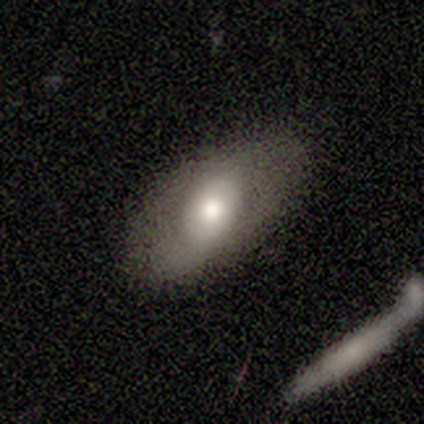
Volunteers were most divided on "bar" (2-way tie): strong: 50%, no: 50%, weak: 0%; "bulge size" (2-way tie): large: 50%, moderate: 50%, dominant: 0%, small: 0%, none: 0%. More confident: spiral arms — no (100%); merging — none (100%); smooth or featured — featured or disk (75%); edge-on disk — no (67%).